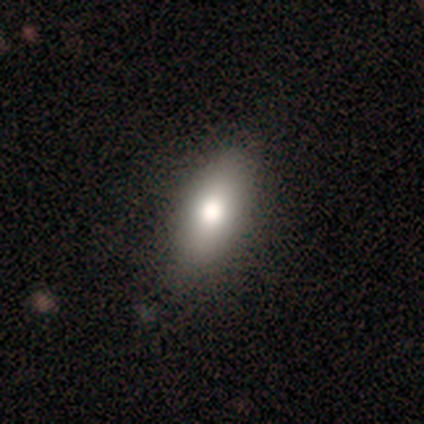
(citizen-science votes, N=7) smooth-or-featured: smooth: 100% | featured or disk: 0% | star or artifact: 0%
  how-rounded: in between: 86% | cigar-shaped: 14% | round: 0%
  merging: none: 86% | minor disturbance: 14% | major disturbance: 0% | merger: 0%